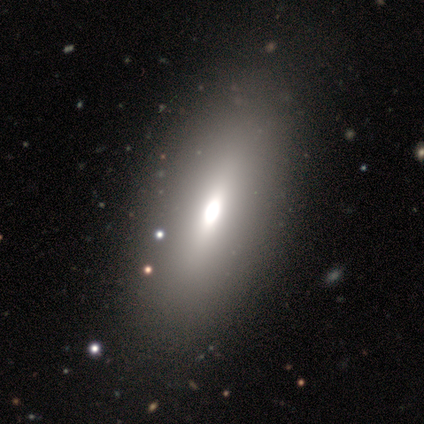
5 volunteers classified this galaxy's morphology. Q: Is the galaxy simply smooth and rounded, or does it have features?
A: smooth — 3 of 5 (60%).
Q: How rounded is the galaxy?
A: in between — 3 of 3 (100%).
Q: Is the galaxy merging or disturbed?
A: none — 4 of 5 (80%).